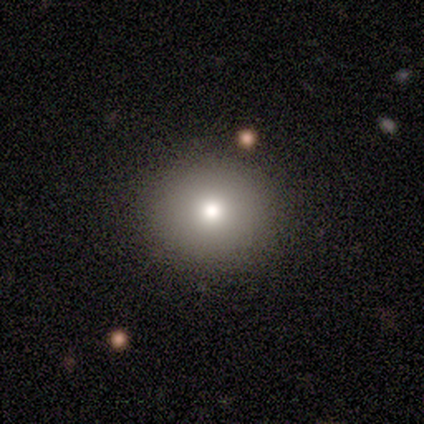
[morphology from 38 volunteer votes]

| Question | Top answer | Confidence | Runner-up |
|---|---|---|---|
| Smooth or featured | smooth | 84% | featured or disk (8%) |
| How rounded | round | 91% | in between (9%) |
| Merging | none | 83% | minor disturbance (9%) |